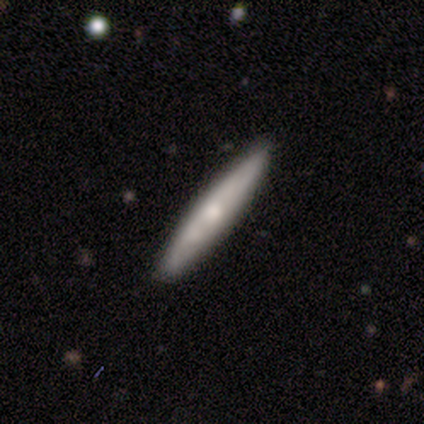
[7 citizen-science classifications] Volunteers were most divided on "smooth or featured": smooth: 71%, featured or disk: 29%, star or artifact: 0%. More confident: merging — none (86%); how rounded — cigar-shaped (80%).